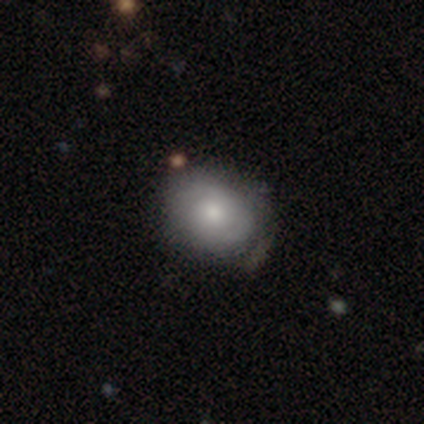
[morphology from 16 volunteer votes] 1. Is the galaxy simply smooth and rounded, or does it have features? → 62% smooth, 38% featured or disk, 0% star or artifact.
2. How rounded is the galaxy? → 60% in between, 40% round, 0% cigar-shaped.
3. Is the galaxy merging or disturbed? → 69% none, 19% minor disturbance, 6% major disturbance, 6% merger.